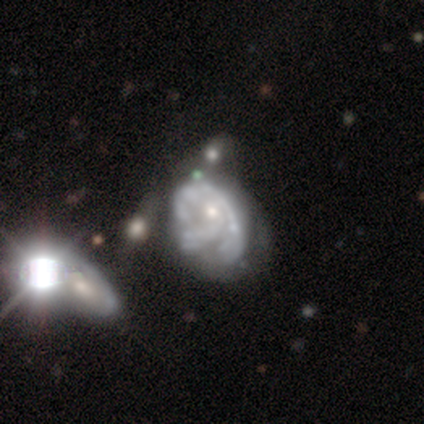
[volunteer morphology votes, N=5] A featured or disk galaxy (80%) with no bar (75%), loose (50%) spiral arms (100%) and a small central bulge (75%). Merging: merger (60%).